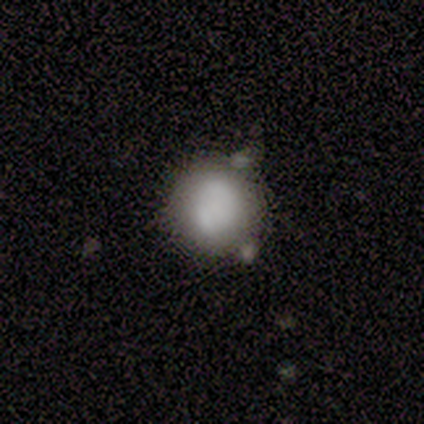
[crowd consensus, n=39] Smooth or featured?
  - smooth: 67% *
  - featured or disk: 26%
  - star or artifact: 8%
How rounded?
  - round: 92% *
  - in between: 8%
  - cigar-shaped: 0%
Merging?
  - none: 58% *
  - minor disturbance: 19%
  - merger: 19%
  - major disturbance: 3%